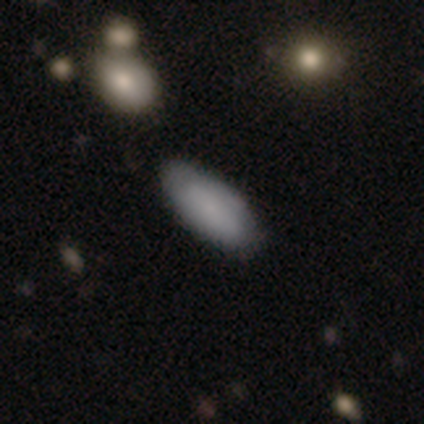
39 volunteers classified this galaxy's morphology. Smooth or featured? smooth (87%)
How rounded? in between (97%)
Merging? none (76%)